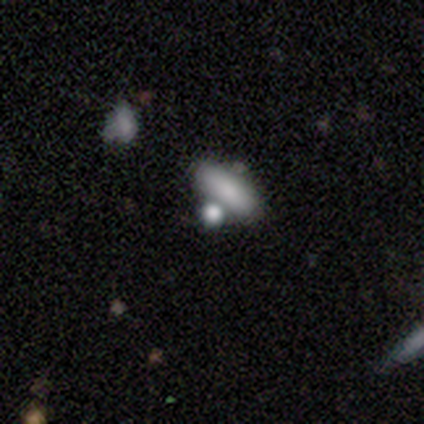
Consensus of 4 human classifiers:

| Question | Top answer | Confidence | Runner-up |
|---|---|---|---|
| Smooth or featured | smooth | 75% | featured or disk (25%) |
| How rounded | in between | 67% | cigar-shaped (33%) |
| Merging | none | 75% | minor disturbance (25%) |